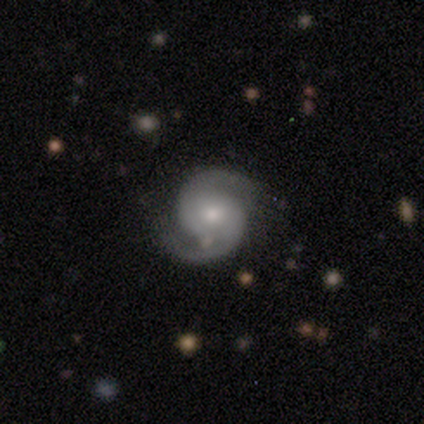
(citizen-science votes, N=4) smooth-or-featured: featured or disk: 75% | smooth: 25% | star or artifact: 0%
  disk-edge-on: no: 100% | yes: 0%
    bar: no: 67% | strong: 33% | weak: 0%
    has-spiral-arms: yes: 100% | no: 0%
      spiral-winding: medium: 67% | tight: 33% | loose: 0%
      spiral-arm-count: 2: 100% | 1: 0% | 3: 0% | 4: 0% | more than 4: 0% | can't tell: 0%
    bulge-size: moderate: 67% | small: 33% | dominant: 0% | large: 0% | none: 0%
  merging: none: 75% | minor disturbance: 25% | major disturbance: 0% | merger: 0%